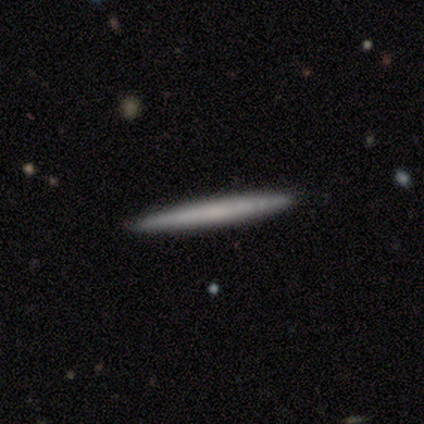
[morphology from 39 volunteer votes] smooth_or_featured: smooth (p=0.64) [alt: featured or disk p=0.36]
how_rounded: cigar-shaped (p=1.00)
merging: none (p=0.90) [alt: minor disturbance p=0.08]